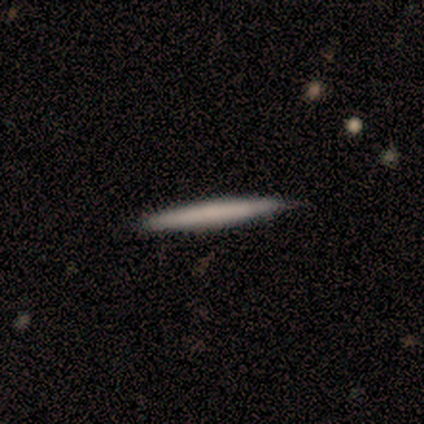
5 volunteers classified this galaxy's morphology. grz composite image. It shows a smooth galaxy with no disk features (80%) that is cigar-shaped (75%). Merging: none (80%).